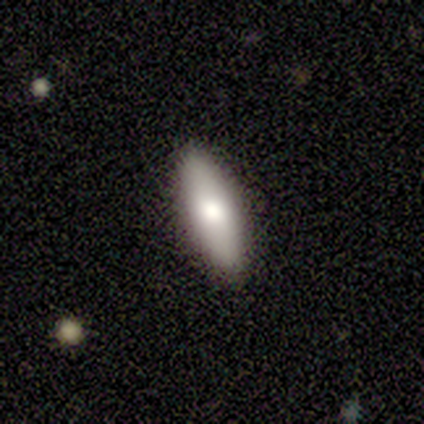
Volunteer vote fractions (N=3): Smooth or featured? 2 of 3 (67%) said smooth. How rounded? 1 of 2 (50%, tied with cigar-shaped) said in between. Merging? 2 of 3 (67%) said none.